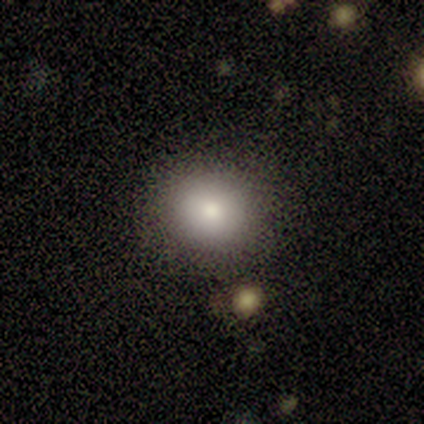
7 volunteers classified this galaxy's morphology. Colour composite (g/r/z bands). It shows a smooth galaxy with no disk features (71%) that is round (80%). Merging: none (83%).